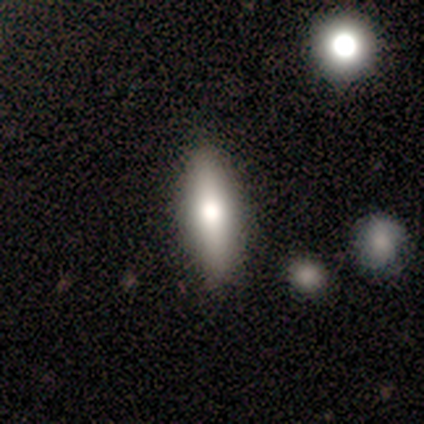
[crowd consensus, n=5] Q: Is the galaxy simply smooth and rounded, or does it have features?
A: smooth — 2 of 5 (40%, tied with featured or disk).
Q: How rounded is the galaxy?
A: cigar-shaped — 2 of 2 (100%).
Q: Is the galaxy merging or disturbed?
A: none — 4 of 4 (100%).